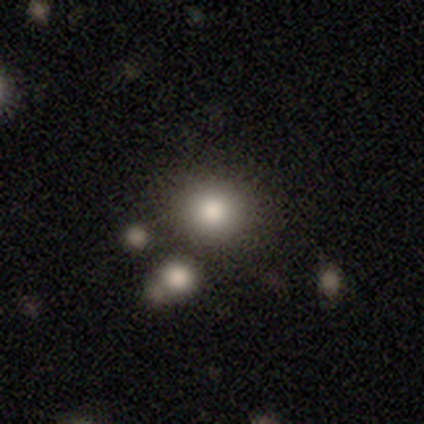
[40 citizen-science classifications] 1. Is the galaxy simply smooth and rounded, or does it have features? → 82% smooth, 12% star or artifact, 5% featured or disk.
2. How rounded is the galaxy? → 88% round, 12% in between, 0% cigar-shaped.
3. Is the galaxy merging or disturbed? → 91% none, 6% merger, 3% minor disturbance, 0% major disturbance.